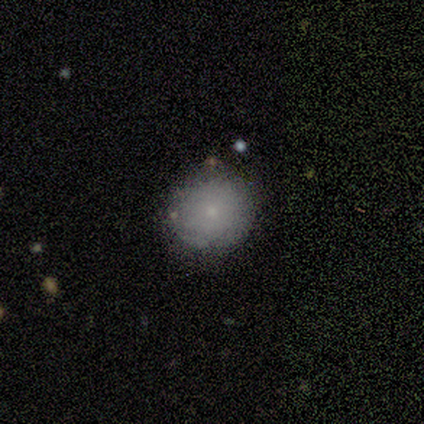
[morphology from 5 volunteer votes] Smooth or featured?
  - smooth: 60% *
  - featured or disk: 20%
  - star or artifact: 20%
How rounded?
  - round: 100% *
  - in between: 0%
  - cigar-shaped: 0%
Merging?
  - none: 75% *
  - minor disturbance: 25%
  - major disturbance: 0%
  - merger: 0%